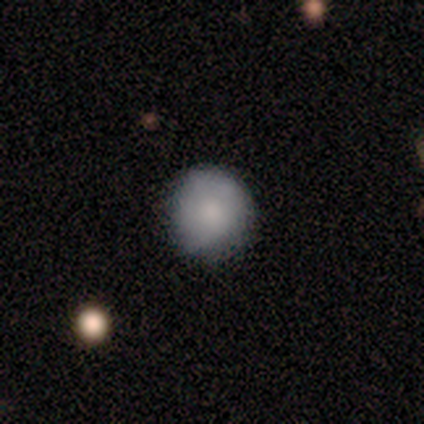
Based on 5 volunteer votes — Smooth or featured? 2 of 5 (40%, tied with featured or disk) said smooth. How rounded? 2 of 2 (100%) said round. Merging? 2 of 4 (50%, tied with major disturbance) said none.